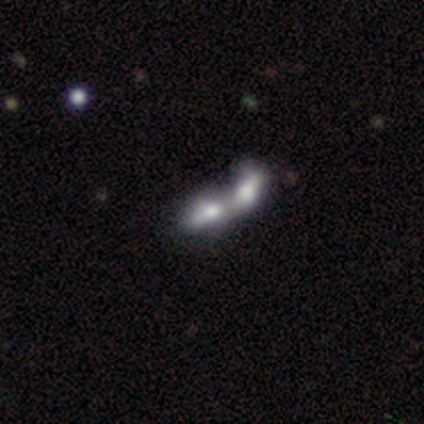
smooth 46%, featured or disk 41%, star or artifact 13%. Down the decision tree: how rounded — in between (89%); merging — merger (94%).